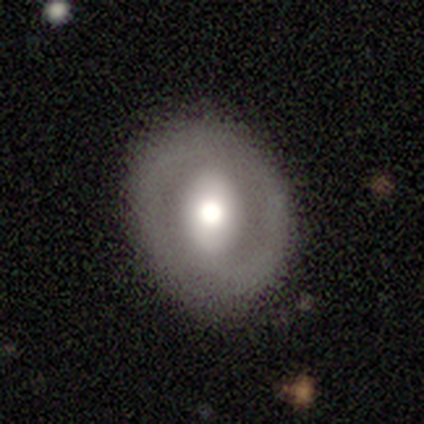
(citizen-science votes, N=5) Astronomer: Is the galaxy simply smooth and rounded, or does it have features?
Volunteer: smooth — 40%, tied with featured or disk at 40%.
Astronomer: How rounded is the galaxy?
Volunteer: round — 50%, tied with in between at 50%.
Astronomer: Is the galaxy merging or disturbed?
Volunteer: none — 75%.